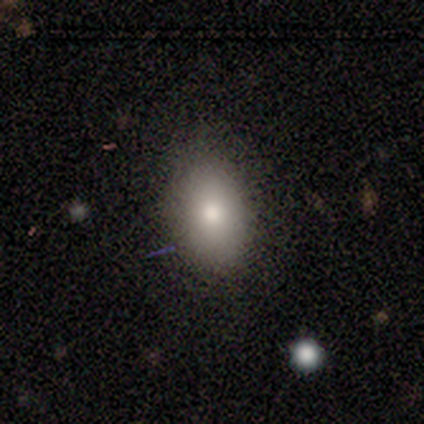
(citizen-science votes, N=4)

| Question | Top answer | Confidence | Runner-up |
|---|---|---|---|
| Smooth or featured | smooth | 100% | — |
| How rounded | in between | 100% | — |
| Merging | none | 50% | tied: minor disturbance (50%) |